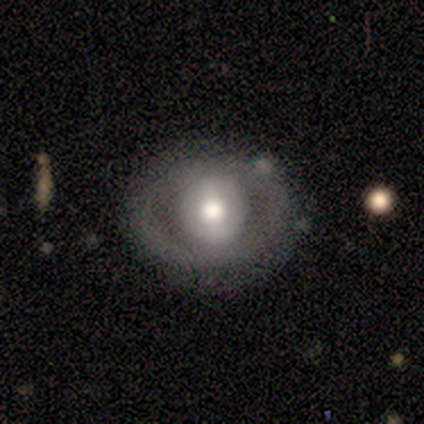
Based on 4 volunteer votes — This is likely a featured or disk galaxy (75%). It is clearly not viewed edge-on (100%). Bar: likely no (67%). Spiral arm pattern: likely yes (67%). Spiral arm count: possibly 2 (50%, tied with 3). Spiral winding: possibly tight (50%, tied with medium). Central bulge: likely moderate (67%). Merging: clearly none (100%).